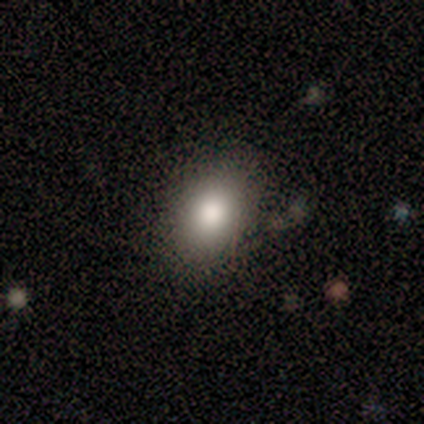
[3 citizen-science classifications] Morphology: type=smooth (100%); roundness=in between (100%); merging=none (100%).